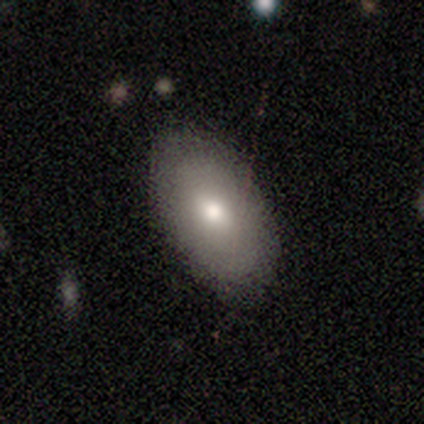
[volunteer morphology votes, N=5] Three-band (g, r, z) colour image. It shows a smooth galaxy with no disk features (60%) that is in between round and cigar-shaped (100%). Merging: none (100%).